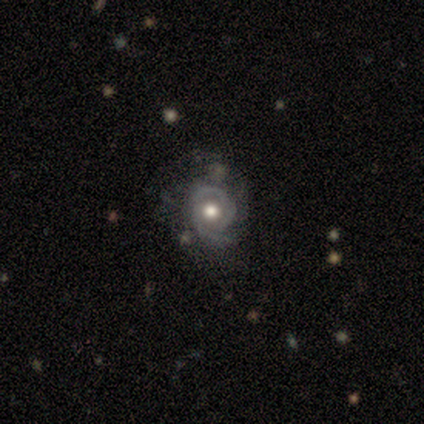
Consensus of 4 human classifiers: Smooth or featured? featured or disk (100%)
Edge-on disk? no (100%)
Bar? no (75%)
Spiral arms? no (75%)
Bulge size? moderate (100%)
Merging? none (50%, tied with minor disturbance)